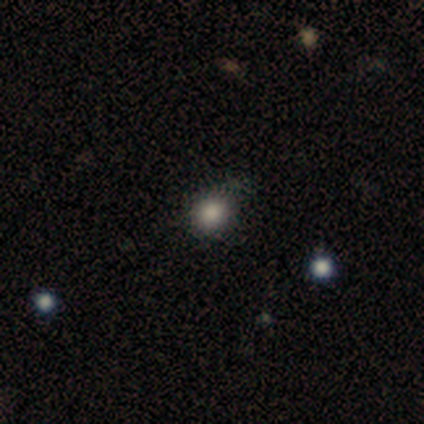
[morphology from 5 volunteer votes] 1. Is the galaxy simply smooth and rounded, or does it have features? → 100% smooth, 0% featured or disk, 0% star or artifact.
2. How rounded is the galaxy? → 100% round, 0% in between, 0% cigar-shaped.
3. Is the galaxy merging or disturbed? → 80% none, 20% minor disturbance, 0% major disturbance, 0% merger.